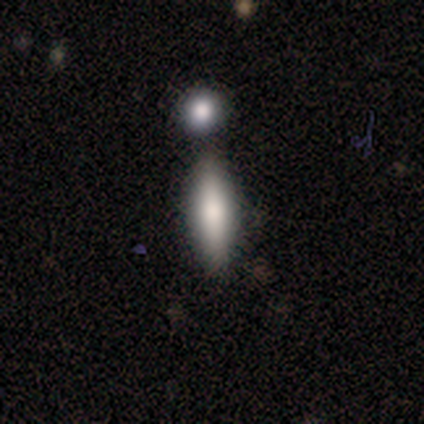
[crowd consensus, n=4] smooth_or_featured: smooth (p=0.75) [alt: featured or disk p=0.25]
how_rounded: in between (p=1.00)
merging: none (p=0.50) [alt: minor disturbance p=0.25]